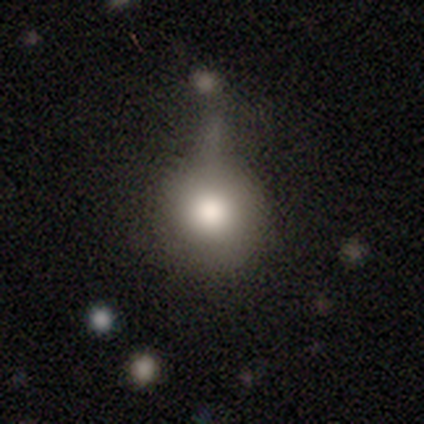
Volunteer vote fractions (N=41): A smooth galaxy with no disk features (88%) that is round (89%). Merging: minor disturbance (30%).